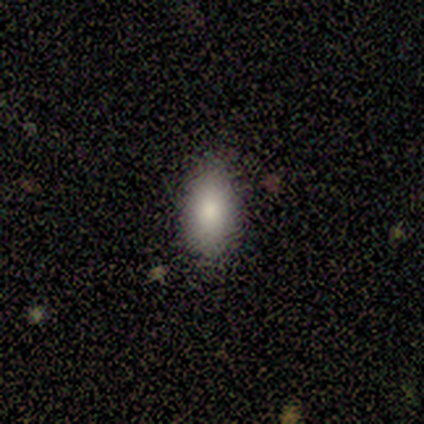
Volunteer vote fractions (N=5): Smooth or featured?
  - smooth: 80% *
  - featured or disk: 20%
  - star or artifact: 0%
How rounded?
  - in between: 100% *
  - round: 0%
  - cigar-shaped: 0%
Merging?
  - none: 80% *
  - minor disturbance: 20%
  - major disturbance: 0%
  - merger: 0%